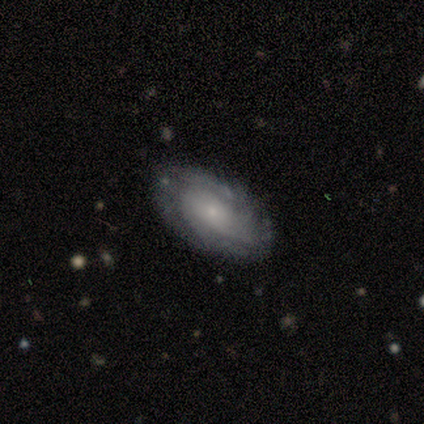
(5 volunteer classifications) smooth-or-featured: featured or disk: 80% | smooth: 20% | star or artifact: 0%
  disk-edge-on: no: 100% | yes: 0%
    bar: no: 100% | strong: 0% | weak: 0%
    has-spiral-arms: yes: 75% | no: 25%
      spiral-winding: tight: 67% | loose: 33% | medium: 0%
      spiral-arm-count: can't tell: 100% | 1: 0% | 2: 0% | 3: 0% | 4: 0% | more than 4: 0%
    bulge-size: small: 100% | dominant: 0% | large: 0% | moderate: 0% | none: 0%
  merging: none: 100% | minor disturbance: 0% | major disturbance: 0% | merger: 0%